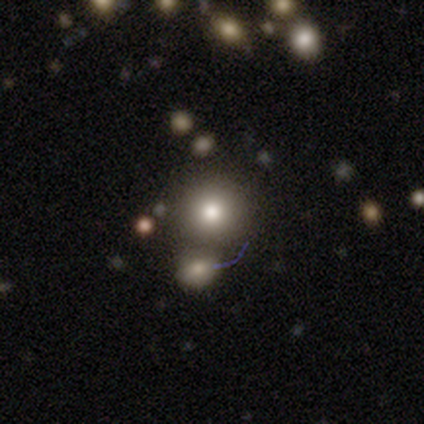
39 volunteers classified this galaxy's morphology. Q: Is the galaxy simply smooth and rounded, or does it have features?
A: smooth — 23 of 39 (59%).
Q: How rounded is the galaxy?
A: round — 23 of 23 (100%).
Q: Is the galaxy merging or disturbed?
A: none — 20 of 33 (61%).